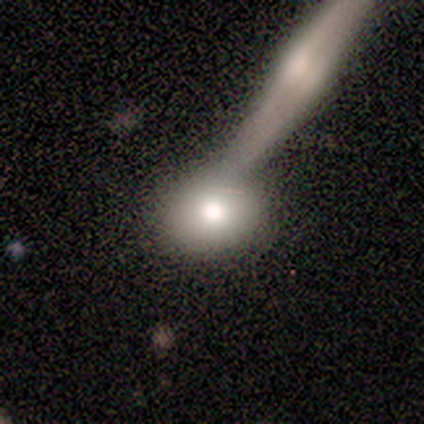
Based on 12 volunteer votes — Smooth or featured: smooth — 50% (featured or disk — 42%)
How rounded: round — 50% (tied with in between — 50%)
Merging: none — 36% (tied with major disturbance — 36%)